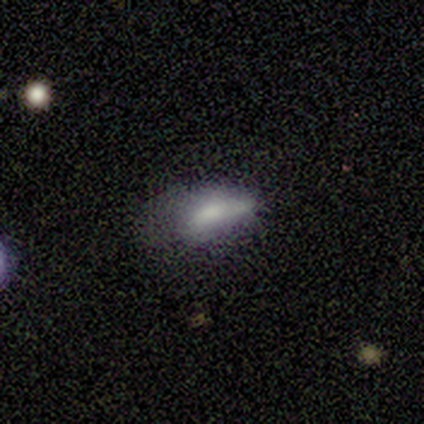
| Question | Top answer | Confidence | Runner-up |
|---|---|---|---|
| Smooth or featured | smooth | 60% | star or artifact (40%) |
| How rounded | in between | 100% | — |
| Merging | minor disturbance | 67% | major disturbance (33%) |